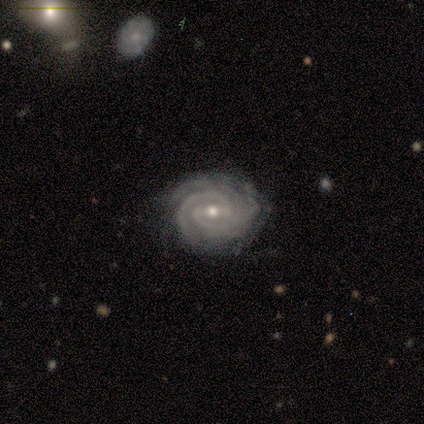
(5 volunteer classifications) Q: Smooth or featured?
A: featured or disk (100%)
Q: Edge-on disk?
A: no (100%)
Q: Bar?
A: weak (60%); runner-up: strong (40%)
Q: Spiral arms?
A: yes (100%)
Q: Spiral winding?
A: tight (60%); runner-up: medium (40%)
Q: Spiral arm count?
A: 2 (80%); runner-up: can't tell (20%)
Q: Bulge size?
A: small (60%); runner-up: moderate (40%)
Q: Merging?
A: none (80%); runner-up: minor disturbance (20%)